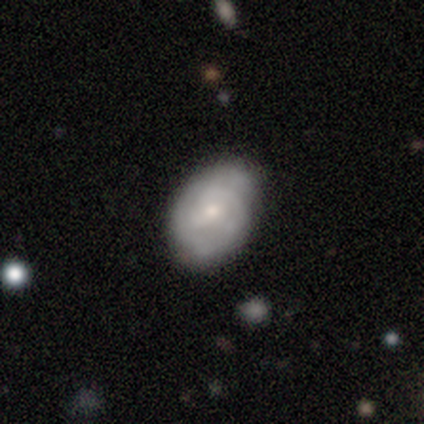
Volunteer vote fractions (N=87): Smooth or featured: featured or disk — 52% (smooth — 45%)
Edge-on disk: no — 100%
Bar: no — 71% (weak — 29%)
Spiral arms: yes — 87% (no — 13%)
Spiral winding: tight — 62% (medium — 28%)
Spiral arm count: can't tell — 46% (2 — 33%)
Bulge size: small — 62% (moderate — 31%)
Merging: none — 74% (minor disturbance — 23%)